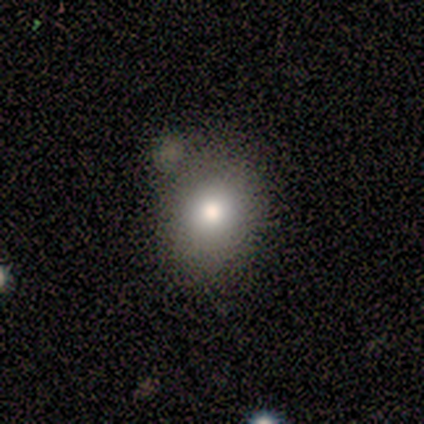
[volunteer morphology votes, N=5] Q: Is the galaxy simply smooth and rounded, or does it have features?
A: smooth — 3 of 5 (60%).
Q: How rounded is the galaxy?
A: in between — 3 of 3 (100%).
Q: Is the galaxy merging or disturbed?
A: none — 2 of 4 (50%).